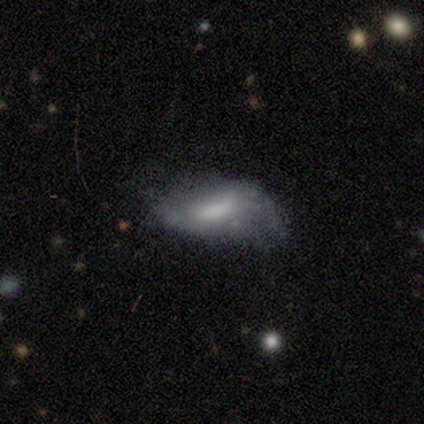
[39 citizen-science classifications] smooth-or-featured: smooth: 56% | featured or disk: 38% | star or artifact: 5%
  how-rounded: in between: 86% | cigar-shaped: 14% | round: 0%
  merging: minor disturbance: 41% | none: 35% | major disturbance: 24% | merger: 0%